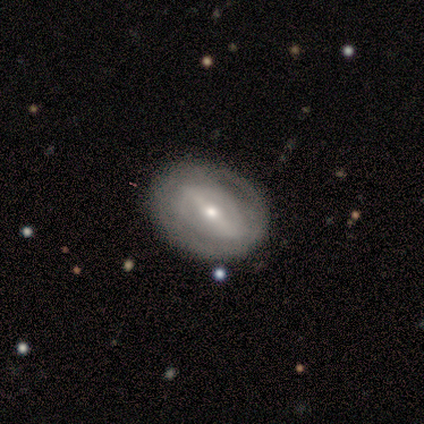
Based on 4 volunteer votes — Q: Smooth or featured?
A: featured or disk (75%); runner-up: smooth (25%)
Q: Edge-on disk?
A: no (67%); runner-up: yes (33%)
Q: Bar?
A: strong (100%)
Q: Spiral arms?
A: yes (50%); tied with: no (50%)
Q: Spiral winding?
A: tight (100%)
Q: Spiral arm count?
A: can't tell (100%)
Q: Bulge size?
A: moderate (100%)
Q: Merging?
A: none (100%)